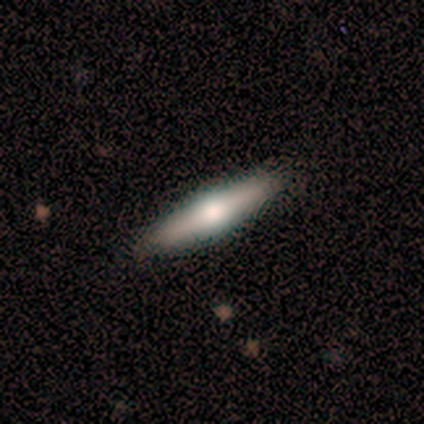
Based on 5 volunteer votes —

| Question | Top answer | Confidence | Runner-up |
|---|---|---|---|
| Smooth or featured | smooth | 60% | featured or disk (40%) |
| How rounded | cigar-shaped | 100% | — |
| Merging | none | 100% | — |